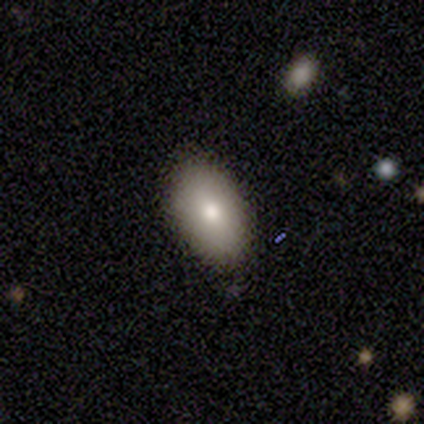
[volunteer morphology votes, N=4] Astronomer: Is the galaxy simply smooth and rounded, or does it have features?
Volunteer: smooth — 75%.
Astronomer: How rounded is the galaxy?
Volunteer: in between — 100%.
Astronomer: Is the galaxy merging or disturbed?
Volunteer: none — 67%.